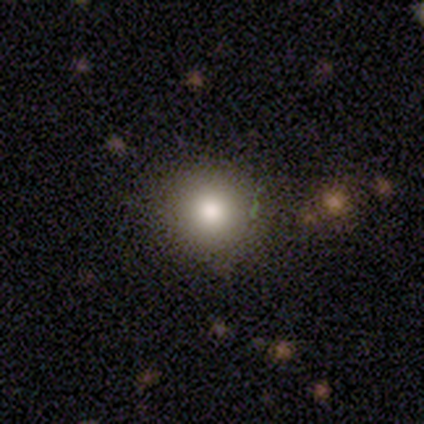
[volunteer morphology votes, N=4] type=smooth (100%); roundness=round (100%); merging=none (75%).